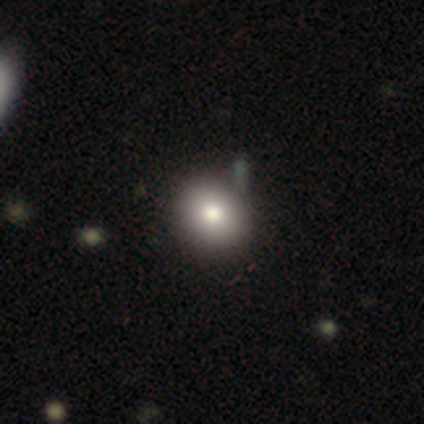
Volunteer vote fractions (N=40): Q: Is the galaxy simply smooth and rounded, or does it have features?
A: smooth — 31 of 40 (78%).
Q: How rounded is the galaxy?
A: round — 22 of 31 (71%).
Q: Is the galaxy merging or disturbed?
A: none — 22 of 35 (63%).